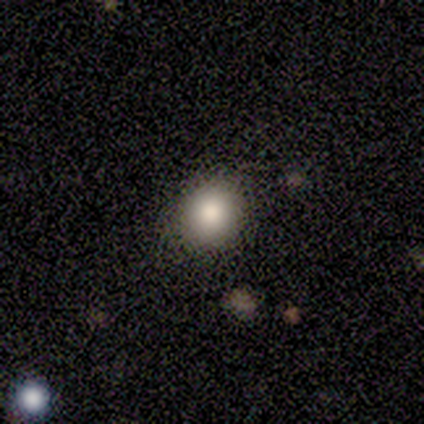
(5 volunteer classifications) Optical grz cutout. It shows a smooth galaxy with no disk features (80%) that is round (75%). Merging: none (75%).